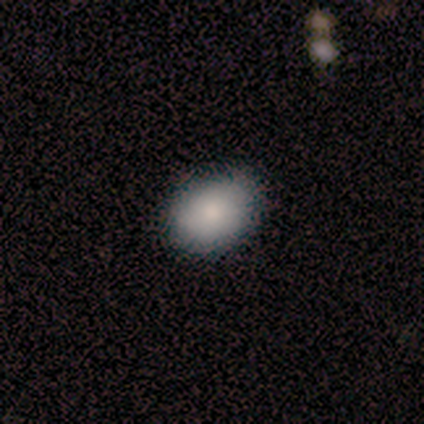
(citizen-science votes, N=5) This appears to be a smooth galaxy with no disk features (80%) that is in between round and cigar-shaped (75%). Merging: none (80%).